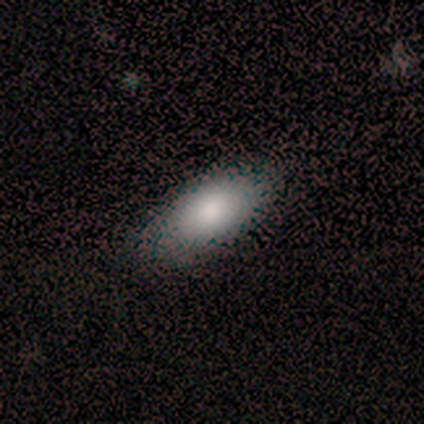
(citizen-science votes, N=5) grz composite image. It shows a smooth galaxy with no disk features (80%) that is in between round and cigar-shaped (100%). Merging: none (80%).